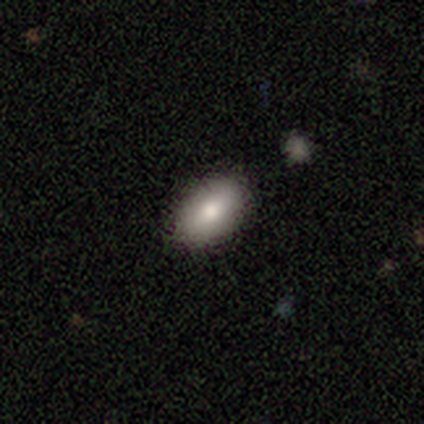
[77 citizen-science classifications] A smooth galaxy with no disk features (83%) that is in between round and cigar-shaped (92%). Merging: none (50%).